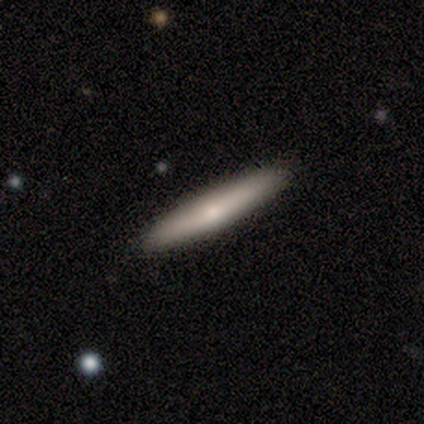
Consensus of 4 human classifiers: This appears to be a smooth galaxy with no disk features (75%) that is cigar-shaped (100%). Merging: none (50%).